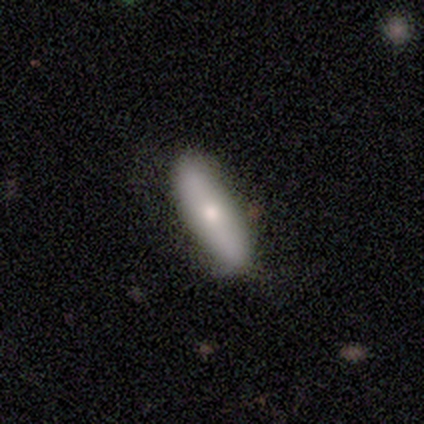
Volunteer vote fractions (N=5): Morphology: type=smooth (60%); roundness=in between (67%); merging=none (80%).